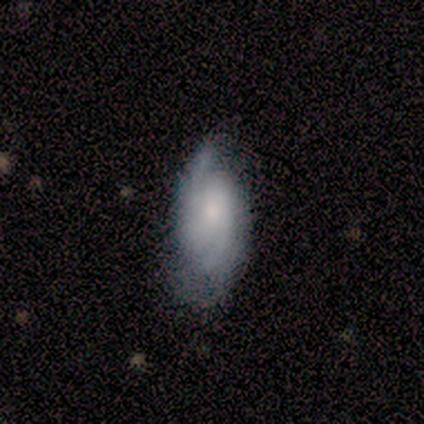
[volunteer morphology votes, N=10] smooth-or-featured: featured or disk: 90% | star or artifact: 10% | smooth: 0%
  disk-edge-on: no: 100% | yes: 0%
    bar: no: 78% | weak: 22% | strong: 0%
    has-spiral-arms: yes: 89% | no: 11%
      spiral-winding: tight: 50% | medium: 38% | loose: 12%
      spiral-arm-count: 2: 88% | can't tell: 12% | 1: 0% | 3: 0% | 4: 0% | more than 4: 0%
    bulge-size: small: 67% | dominant: 11% | moderate: 11% | none: 11% | large: 0%
  merging: none: 56% | minor disturbance: 44% | major disturbance: 0% | merger: 0%